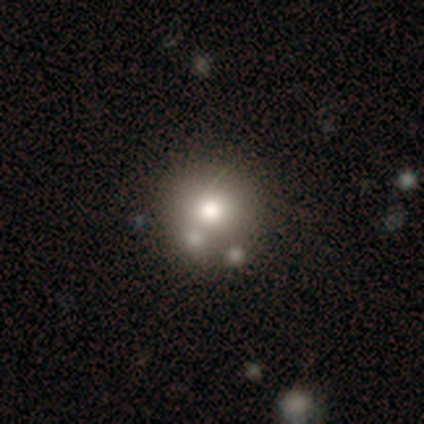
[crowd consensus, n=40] Smooth or featured: smooth — 78% (featured or disk — 20%)
How rounded: round — 100%
Merging: none — 49% (merger — 23%)